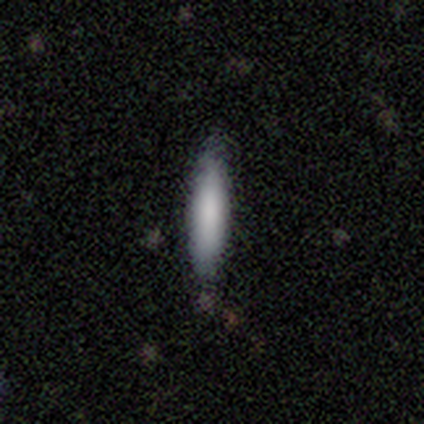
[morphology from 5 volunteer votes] type=smooth (100%); roundness=cigar-shaped (80%); merging=none (100%).